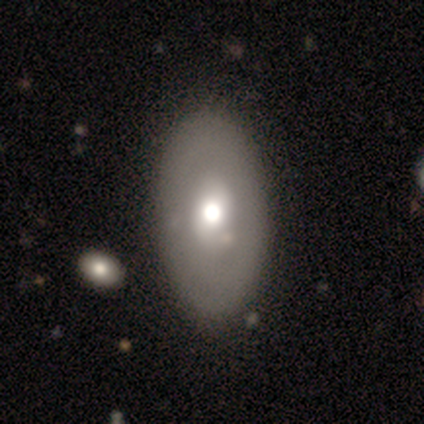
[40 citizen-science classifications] Volunteers were most divided on "smooth or featured": smooth: 60%, featured or disk: 35%, star or artifact: 5%. More confident: how rounded — in between (79%); merging — none (61%).